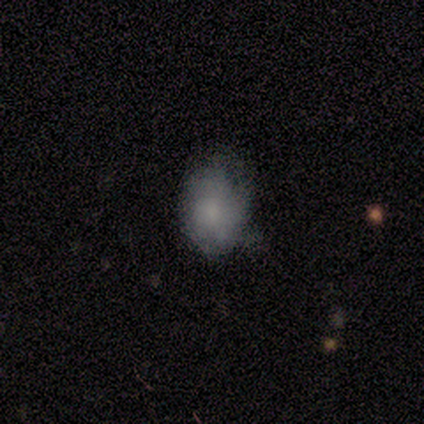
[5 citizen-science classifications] Q: Smooth or featured?
A: smooth (80%); runner-up: featured or disk (20%)
Q: How rounded?
A: round (50%); tied with: in between (50%)
Q: Merging?
A: none (80%); runner-up: major disturbance (20%)